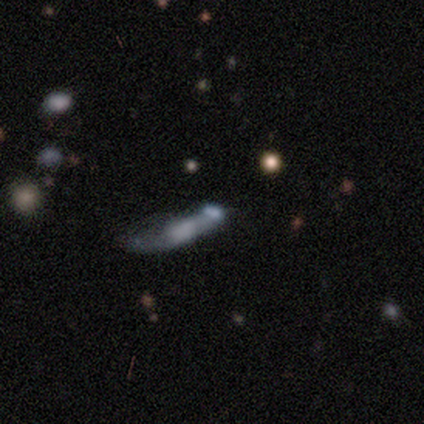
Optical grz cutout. It shows a featured or disk galaxy (60%) with no bar (100%), 2 (100%) loose (100%) spiral arms (50%, tied with no) and a small central bulge (50%, tied with none). Merging: major disturbance (60%).